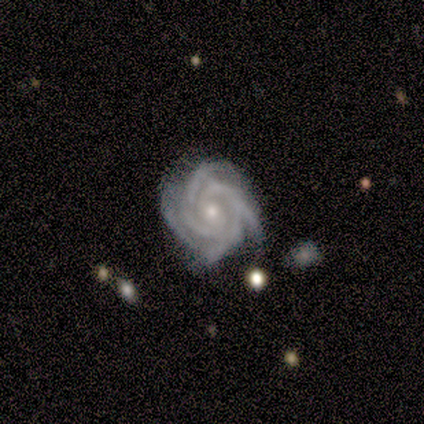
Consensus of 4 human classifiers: Q: Smooth or featured?
A: featured or disk (100%)
Q: Edge-on disk?
A: no (100%)
Q: Bar?
A: no (100%)
Q: Spiral arms?
A: yes (75%); runner-up: no (25%)
Q: Spiral winding?
A: tight (67%); runner-up: medium (33%)
Q: Spiral arm count?
A: 4 (100%)
Q: Bulge size?
A: small (50%); runner-up: moderate (25%)
Q: Merging?
A: none (100%)